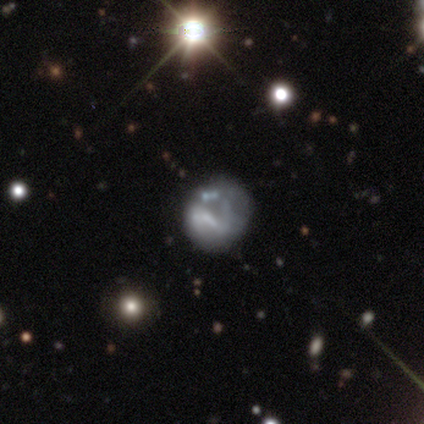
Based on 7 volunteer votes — Morphology: type=smooth (57%); roundness=round (50%, tied with in between); merging=none (50%).